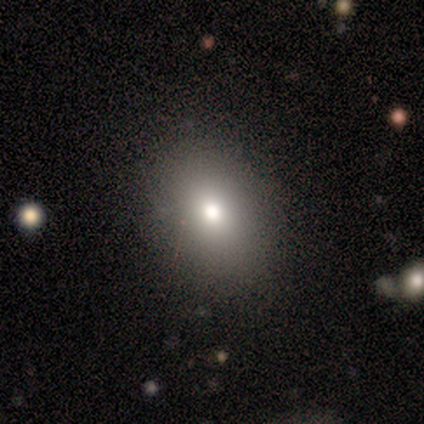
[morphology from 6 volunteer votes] Volunteers were most divided on "smooth or featured" (2-way tie): smooth: 50%, star or artifact: 50%, featured or disk: 0%. More confident: merging — none (100%); how rounded — in between (67%).